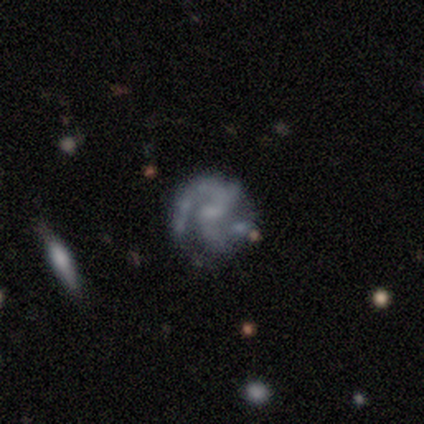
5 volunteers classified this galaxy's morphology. Smooth or featured?
  - featured or disk: 100% *
  - smooth: 0%
  - star or artifact: 0%
Edge-on disk?
  - no: 100% *
  - yes: 0%
Bar?
  - weak: 60% *
  - no: 40%
  - strong: 0%
Spiral arms?
  - yes: 100% *
  - no: 0%
Spiral winding?
  - medium: 80% *
  - loose: 20%
  - tight: 0%
Spiral arm count?
  - 2: 100% *
  - 1: 0%
  - 3: 0%
  - 4: 0%
  - more than 4: 0%
  - can't tell: 0%
Bulge size?
  - none: 60% *
  - small: 40%
  - dominant: 0%
  - large: 0%
  - moderate: 0%
Merging?
  - none: 60% *
  - minor disturbance: 40%
  - major disturbance: 0%
  - merger: 0%